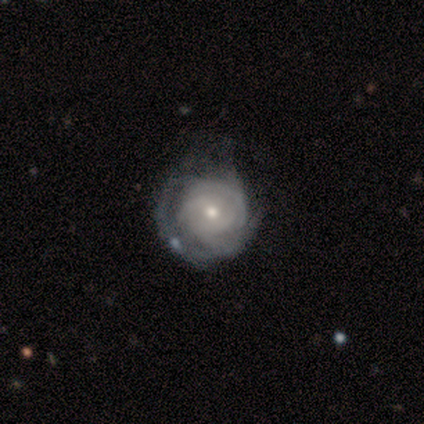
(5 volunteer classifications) featured or disk 80%, smooth 20%, star or artifact 0%. Down the decision tree: edge-on disk — no (100%); bar — no (75%); spiral arms — yes (100%); spiral arm count — can't tell (50%); spiral winding — tight (100%); bulge size — small (75%); merging — none (40%, tied with major disturbance).